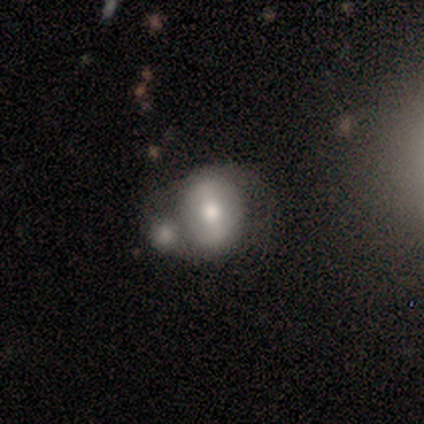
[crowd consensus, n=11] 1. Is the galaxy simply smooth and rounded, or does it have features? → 55% smooth, 45% featured or disk, 0% star or artifact.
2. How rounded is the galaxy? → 67% round, 17% in between, 17% cigar-shaped.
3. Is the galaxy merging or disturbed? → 73% merger, 18% major disturbance, 9% none, 0% minor disturbance.